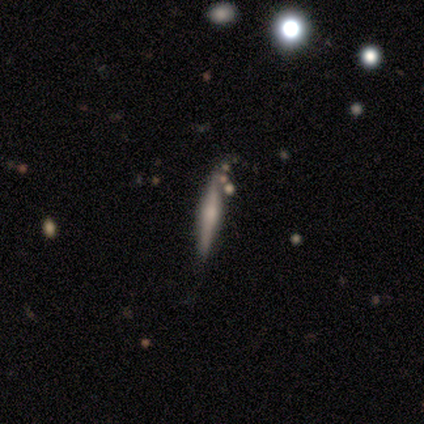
A featured or disk galaxy (100%) viewed edge-on (100%) with no central bulge (100%). Merging: minor disturbance (100%).